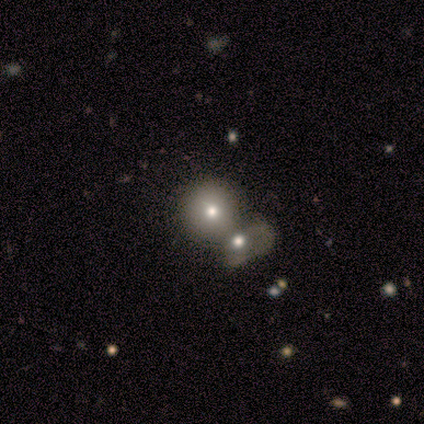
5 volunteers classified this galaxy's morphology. Smooth or featured: smooth — 80% (featured or disk — 20%)
How rounded: round — 100%
Merging: merger — 40% (none — 20%)